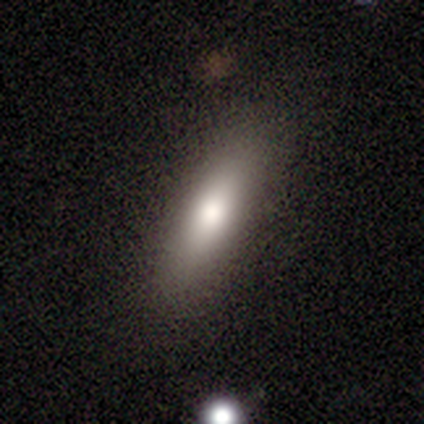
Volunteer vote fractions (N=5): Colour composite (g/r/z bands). It shows a smooth galaxy with no disk features (100%) that is in between round and cigar-shaped (60%). Merging: none (100%).